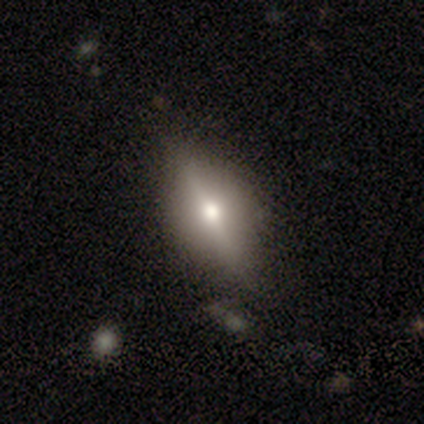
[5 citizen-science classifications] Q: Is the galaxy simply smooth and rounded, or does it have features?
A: smooth — 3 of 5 (60%).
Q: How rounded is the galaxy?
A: round — 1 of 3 (33%, tied with in between and cigar-shaped).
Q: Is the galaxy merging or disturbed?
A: none — 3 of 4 (75%).